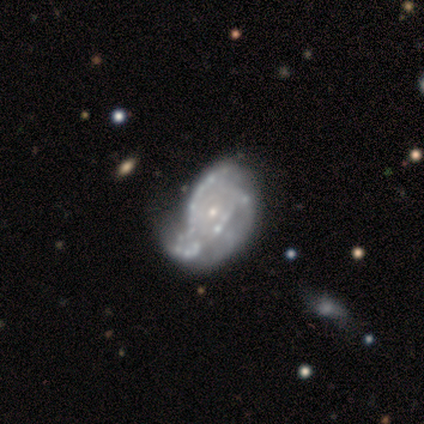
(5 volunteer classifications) Volunteers were most divided on "merging": minor disturbance: 40%, none: 20%, major disturbance: 20%, merger: 20%. More confident: smooth or featured — featured or disk (100%); edge-on disk — no (100%); bar — no (100%); spiral arms — yes (80%); spiral winding — tight (75%); spiral arm count — 3 (75%); bulge size — small (60%).